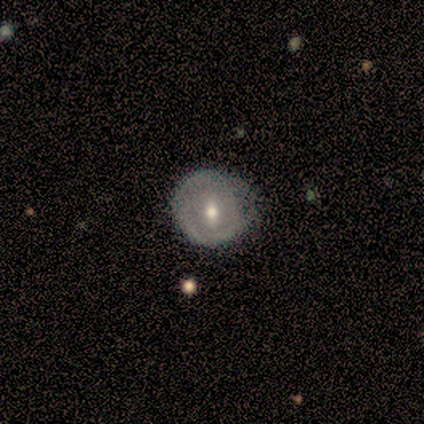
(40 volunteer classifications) A featured or disk galaxy (50%) with a weak bar (50%), no spiral arms (90%) and a moderate central bulge (60%).

Vote fractions:
- Smooth or featured? featured or disk: 50% / smooth: 45% / star or artifact: 5%
- Edge-on disk? no: 100% / yes: 0%
- Bar? weak: 50% / no: 30% / strong: 20%
- Spiral arms? no: 90% / yes: 10%
- Bulge size? moderate: 60% / small: 35% / large: 5% / dominant: 0% / none: 0%
- Merging? none: 66% / minor disturbance: 32% / merger: 3% / major disturbance: 0%